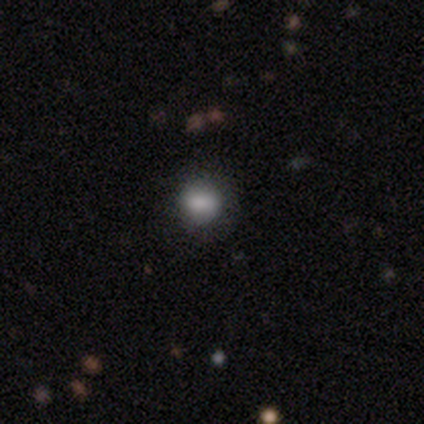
Q: Smooth or featured?
A: smooth (80%); runner-up: star or artifact (20%)
Q: How rounded?
A: round (50%); tied with: in between (50%)
Q: Merging?
A: none (75%); runner-up: minor disturbance (25%)